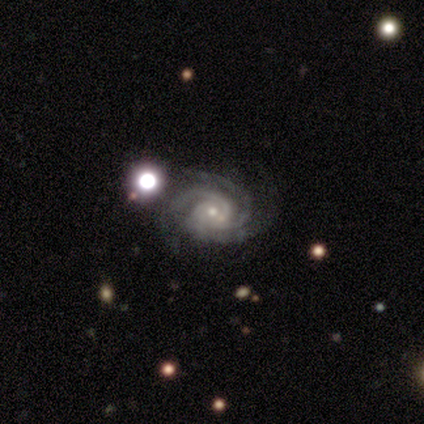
Q: Smooth or featured?
A: featured or disk (100%)
Q: Edge-on disk?
A: no (100%)
Q: Bar?
A: no (100%)
Q: Spiral arms?
A: yes (100%)
Q: Spiral winding?
A: medium (60%); runner-up: tight (40%)
Q: Spiral arm count?
A: 3 (100%)
Q: Bulge size?
A: small (80%); runner-up: moderate (20%)
Q: Merging?
A: none (80%); runner-up: major disturbance (20%)